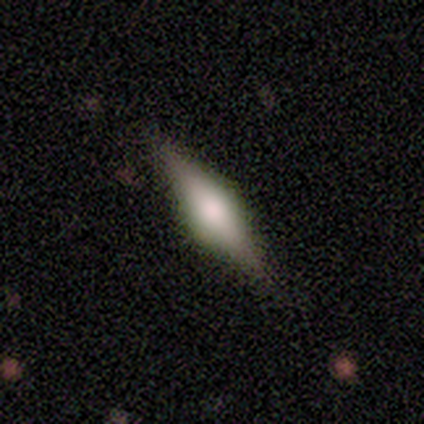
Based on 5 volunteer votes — Q: Smooth or featured?
A: featured or disk (100%)
Q: Edge-on disk?
A: yes (100%)
Q: Edge-on bulge?
A: rounded (100%)
Q: Merging?
A: none (100%)